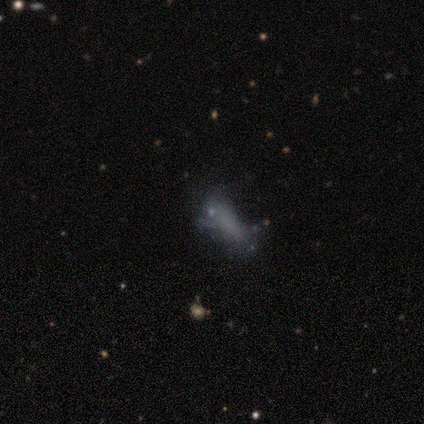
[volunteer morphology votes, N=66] smooth-or-featured: smooth: 48% | featured or disk: 32% | star or artifact: 20%
  how-rounded: in between: 59% | cigar-shaped: 41% | round: 0%
  merging: none: 42% | major disturbance: 30% | minor disturbance: 23% | merger: 6%